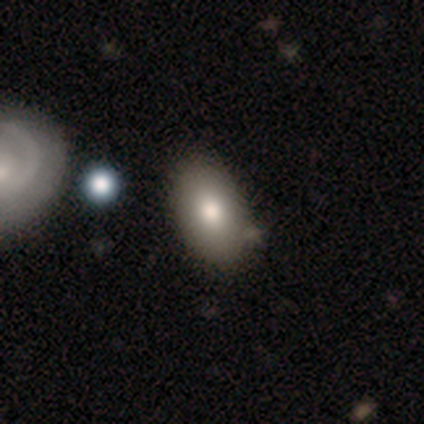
Overall: smooth (83%). How rounded: in between (100%). Merging: none (80%).